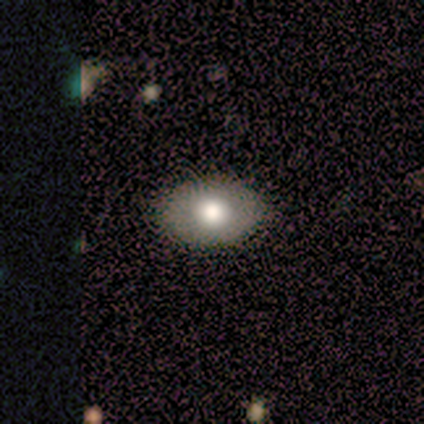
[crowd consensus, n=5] smooth_or_featured: smooth (p=0.80) [alt: star or artifact p=0.20]
how_rounded: in between (p=1.00)
merging: none (p=0.50) [tied with: minor disturbance p=0.50]